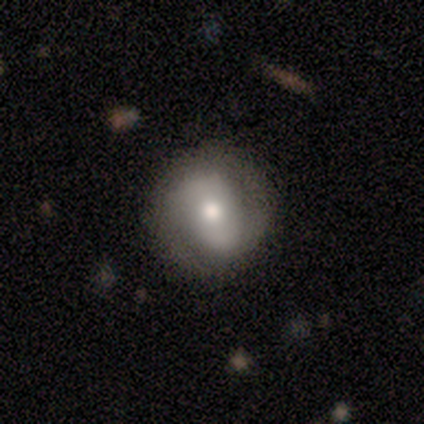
A featured or disk galaxy (60%) with no bar (50%), 2 (80%) tight (40%, tied with loose) spiral arms (83%) and a moderate central bulge (67%).

Vote fractions:
- Smooth or featured? featured or disk: 60% / smooth: 40% / star or artifact: 0%
- Edge-on disk? no: 100% / yes: 0%
- Bar? no: 50% / weak: 33% / strong: 17%
- Spiral arms? yes: 83% / no: 17%
- Spiral winding? tight: 40% (tied) / loose: 40% (tied) / medium: 20%
- Spiral arm count? 2: 80% / can't tell: 20% / 1: 0% / 3: 0% / 4: 0% / more than 4: 0%
- Bulge size? moderate: 67% / small: 17% / none: 17% / dominant: 0% / large: 0%
- Merging? none: 90% / minor disturbance: 10% / major disturbance: 0% / merger: 0%